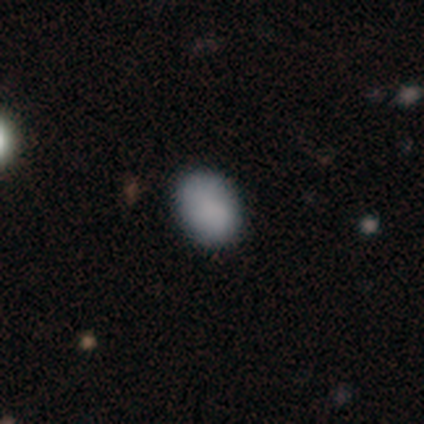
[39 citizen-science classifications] Q: Smooth or featured?
A: smooth (92%); runner-up: star or artifact (5%)
Q: How rounded?
A: in between (75%); runner-up: round (25%)
Q: Merging?
A: none (92%); runner-up: minor disturbance (5%)